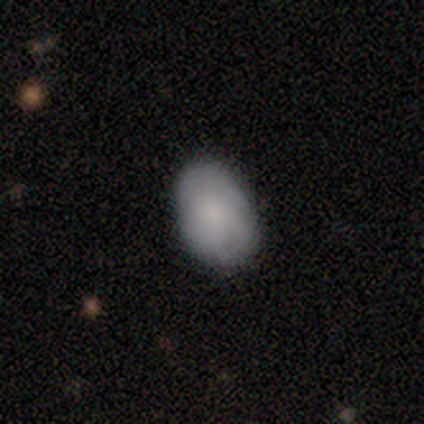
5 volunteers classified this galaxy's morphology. Smooth or featured: smooth — 100%
How rounded: in between — 80% (round — 20%)
Merging: none — 80% (minor disturbance — 20%)